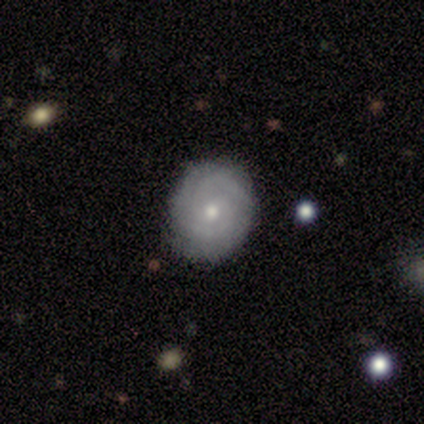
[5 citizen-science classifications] Overall: featured or disk (80%). Edge-on disk: no (100%). Bar: no (75%). Spiral arms: yes (100%). Spiral arm count: 2 (75%). Spiral winding: tight (75%). Bulge size: small (100%). Merging: none (80%).